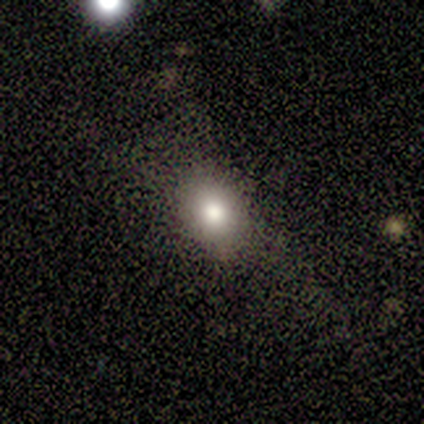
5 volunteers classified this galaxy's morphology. Smooth or featured? smooth (100%)
How rounded? round (80%)
Merging? none (80%)